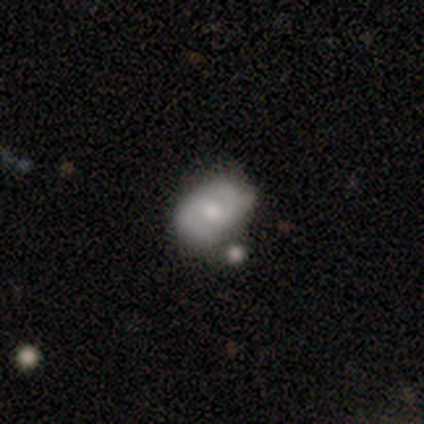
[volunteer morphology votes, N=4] smooth-or-featured: smooth: 50% (tied) | featured or disk: 50% (tied) | star or artifact: 0%
  how-rounded: in between: 100% | round: 0% | cigar-shaped: 0%
  merging: none: 75% | merger: 25% | minor disturbance: 0% | major disturbance: 0%